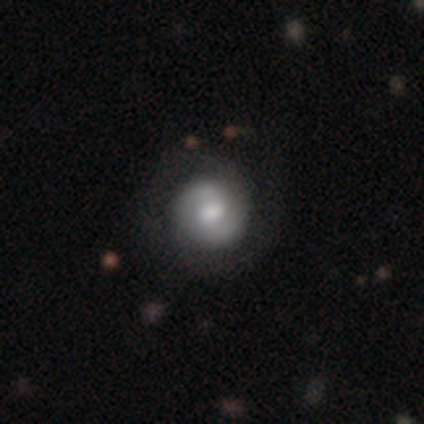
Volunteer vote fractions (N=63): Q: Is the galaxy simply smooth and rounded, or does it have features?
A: featured or disk — 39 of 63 (62%).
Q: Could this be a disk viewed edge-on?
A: no — 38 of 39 (97%).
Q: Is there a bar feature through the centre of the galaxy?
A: weak — 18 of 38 (47%).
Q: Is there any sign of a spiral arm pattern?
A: yes — 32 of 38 (84%).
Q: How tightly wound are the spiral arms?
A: tight — 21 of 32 (66%).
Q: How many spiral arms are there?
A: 2 — 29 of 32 (91%).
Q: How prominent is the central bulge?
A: moderate — 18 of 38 (47%).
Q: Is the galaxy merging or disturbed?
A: none — 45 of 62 (73%).